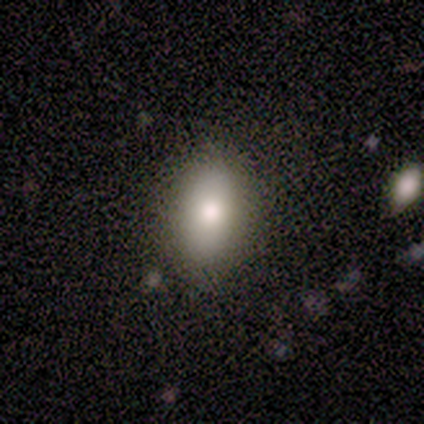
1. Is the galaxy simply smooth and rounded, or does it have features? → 60% smooth, 40% star or artifact, 0% featured or disk.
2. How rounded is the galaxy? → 100% in between, 0% round, 0% cigar-shaped.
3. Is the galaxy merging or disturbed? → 100% none, 0% minor disturbance, 0% major disturbance, 0% merger.